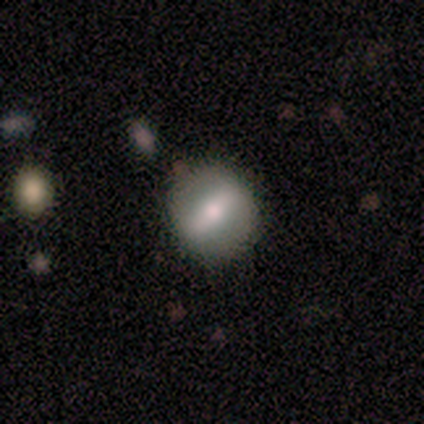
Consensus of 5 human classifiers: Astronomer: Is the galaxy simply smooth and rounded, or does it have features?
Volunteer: smooth — 40%, tied with featured or disk at 40%.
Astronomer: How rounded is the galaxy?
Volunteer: round — 50%, tied with in between at 50%.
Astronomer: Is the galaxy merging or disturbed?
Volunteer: none — 75%.